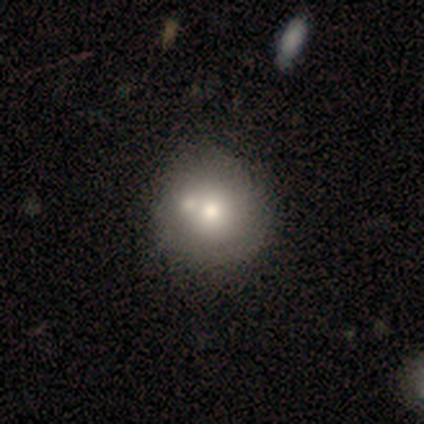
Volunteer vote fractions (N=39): Smooth or featured?
  - smooth: 69% *
  - featured or disk: 31%
  - star or artifact: 0%
How rounded?
  - round: 96% *
  - cigar-shaped: 4%
  - in between: 0%
Merging?
  - none: 49% *
  - merger: 31%
  - minor disturbance: 5%
  - major disturbance: 3%